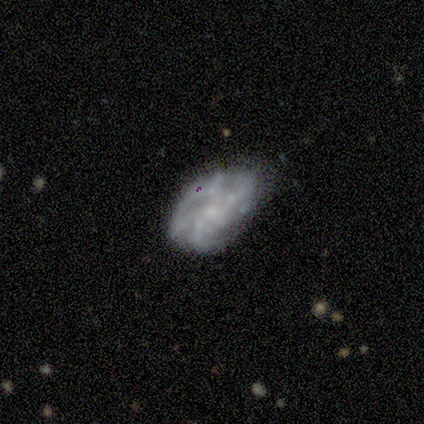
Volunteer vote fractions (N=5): Smooth or featured? featured or disk (100%)
Edge-on disk? no (100%)
Bar? no (80%)
Spiral arms? yes (80%)
Spiral winding? tight (50%, tied with medium)
Spiral arm count? 4 (50%, tied with can't tell)
Bulge size? small (80%)
Merging? none (100%)